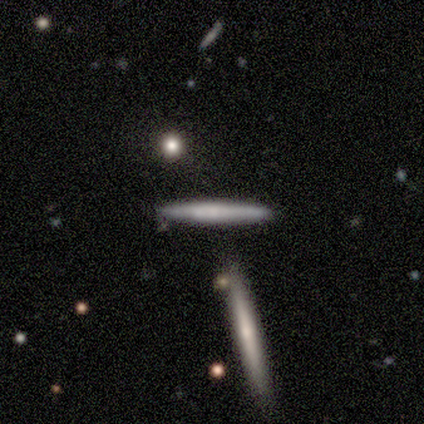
Morphology: type=smooth (51%); roundness=cigar-shaped (95%); merging=none (75%).